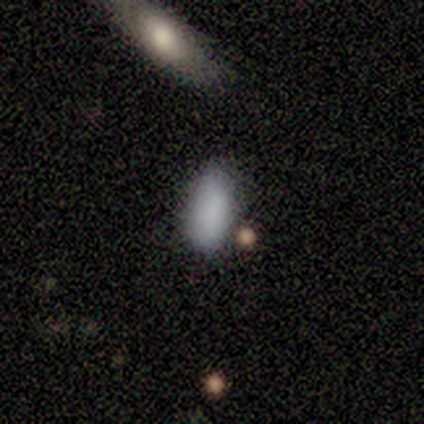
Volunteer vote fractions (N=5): Smooth or featured?
  - smooth: 100% *
  - featured or disk: 0%
  - star or artifact: 0%
How rounded?
  - in between: 100% *
  - round: 0%
  - cigar-shaped: 0%
Merging?
  - none: 100% *
  - minor disturbance: 0%
  - major disturbance: 0%
  - merger: 0%